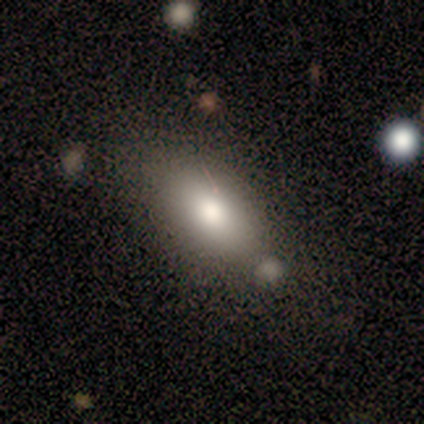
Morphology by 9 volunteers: A smooth galaxy with no disk features (100%) that is in between round and cigar-shaped (89%). Merging: none (56%).